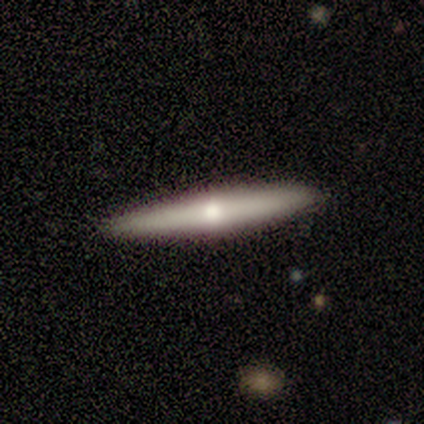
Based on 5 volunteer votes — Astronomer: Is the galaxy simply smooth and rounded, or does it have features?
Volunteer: featured or disk — 80%.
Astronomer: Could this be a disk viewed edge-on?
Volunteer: yes — 100%.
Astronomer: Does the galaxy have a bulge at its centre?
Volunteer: rounded — 100%.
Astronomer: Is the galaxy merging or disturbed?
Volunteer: none — 100%.